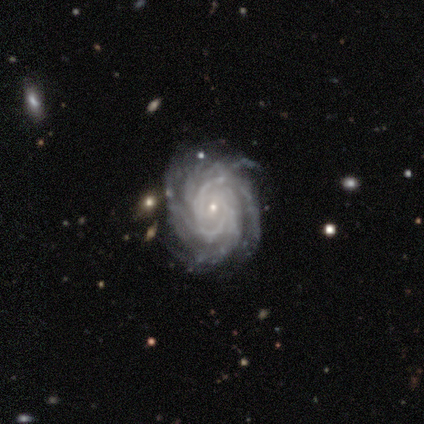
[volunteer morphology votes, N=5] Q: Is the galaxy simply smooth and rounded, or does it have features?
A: featured or disk — 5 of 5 (100%).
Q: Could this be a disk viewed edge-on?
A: no — 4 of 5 (80%).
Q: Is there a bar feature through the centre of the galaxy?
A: weak — 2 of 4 (50%, tied with no).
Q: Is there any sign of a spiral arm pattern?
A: yes — 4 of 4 (100%).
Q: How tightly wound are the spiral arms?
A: tight — 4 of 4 (100%).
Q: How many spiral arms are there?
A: more than 4 — 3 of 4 (75%).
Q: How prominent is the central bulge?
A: small — 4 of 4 (100%).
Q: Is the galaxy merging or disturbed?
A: none — 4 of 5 (80%).